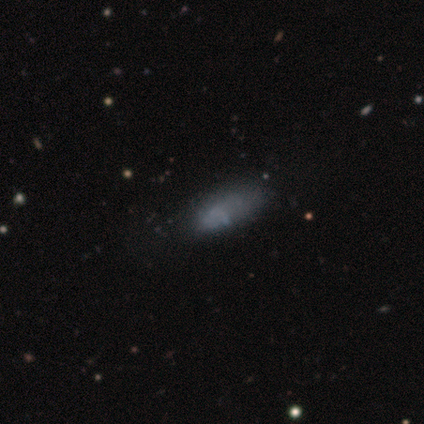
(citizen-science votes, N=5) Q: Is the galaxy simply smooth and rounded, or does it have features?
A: smooth — 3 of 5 (60%).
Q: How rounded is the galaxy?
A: in between — 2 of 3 (67%).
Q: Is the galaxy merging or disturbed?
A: none — 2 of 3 (67%).